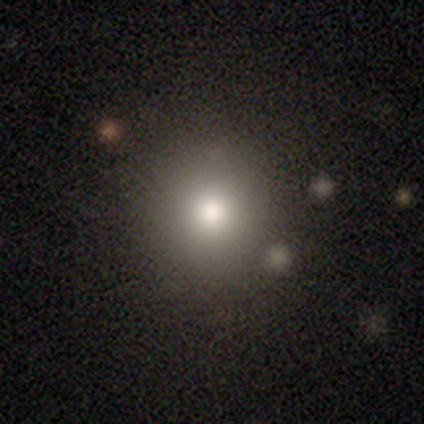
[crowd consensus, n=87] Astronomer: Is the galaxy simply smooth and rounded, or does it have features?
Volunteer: smooth — 66%.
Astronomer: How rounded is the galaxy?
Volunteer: round — 89%.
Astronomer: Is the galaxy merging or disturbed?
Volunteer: none — 88%.